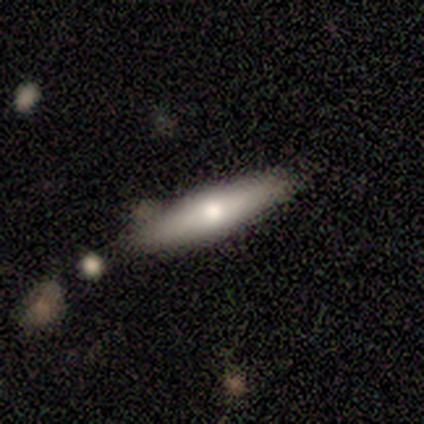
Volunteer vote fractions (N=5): smooth_or_featured: featured or disk (p=0.40) [tied with: star or artifact p=0.40]
disk_edge_on: yes (p=0.50) [tied with: no p=0.50]
edge_on_bulge: rounded (p=1.00)
merging: none (p=0.67) [alt: minor disturbance p=0.33]